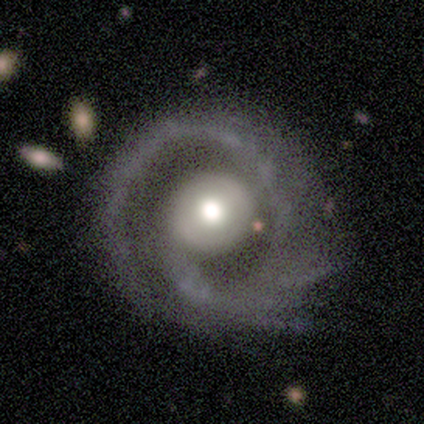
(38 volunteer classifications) Volunteers were most divided on "spiral arm count": 2: 47%, 1: 43%, 3: 7%, 4: 3%, more than 4: 0%, can't tell: 0%. Remaining: edge-on disk — no (97%); spiral arms — yes (94%); smooth or featured — featured or disk (87%); bulge size — moderate (66%); bar — no (62%); merging — none (57%); spiral winding — medium (43%).